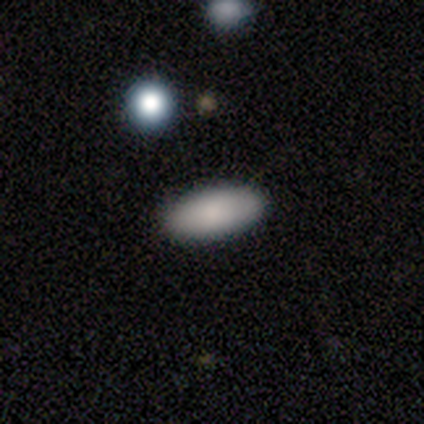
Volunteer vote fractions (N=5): Volunteers were most divided on "how rounded": in between: 80%, cigar-shaped: 20%, round: 0%. More confident: smooth or featured — smooth (100%); merging — none (100%).